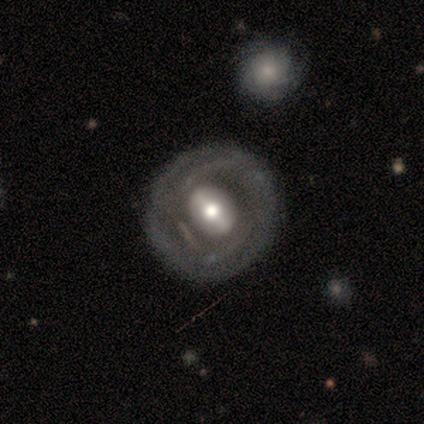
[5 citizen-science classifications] Morphology: type=featured or disk (60%); edge-on=no (100%); bar=strong (33%, tied with weak and no); spiral arms=yes (67%); winding=tight (50%, tied with medium); arm count=2 (50%, tied with can't tell); bulge=large (67%); merging=none (80%).